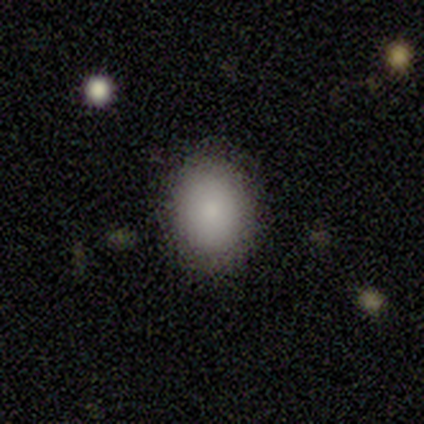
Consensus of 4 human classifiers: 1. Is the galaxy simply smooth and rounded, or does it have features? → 100% smooth, 0% featured or disk, 0% star or artifact.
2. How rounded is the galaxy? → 50% round (tied), 50% in between (tied), 0% cigar-shaped.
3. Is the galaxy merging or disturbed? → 100% none, 0% minor disturbance, 0% major disturbance, 0% merger.